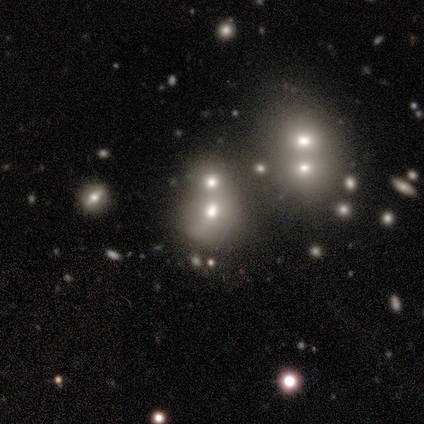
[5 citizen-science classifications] star or artifact 60%, smooth 20%, featured or disk 20%.